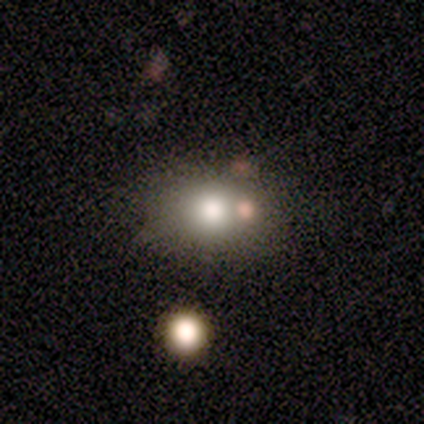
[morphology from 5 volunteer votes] type=star or artifact (60%).